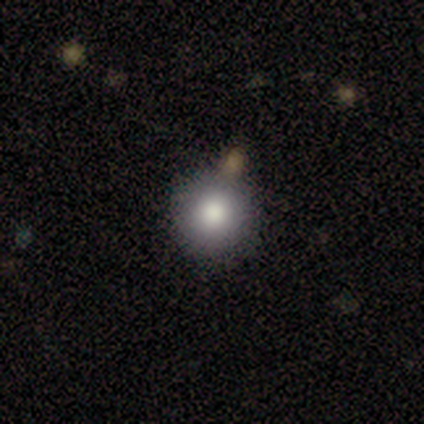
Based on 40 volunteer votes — Volunteers were most divided on "smooth or featured": smooth: 72%, star or artifact: 20%, featured or disk: 8%. More confident: how rounded — round (93%); merging — none (78%).